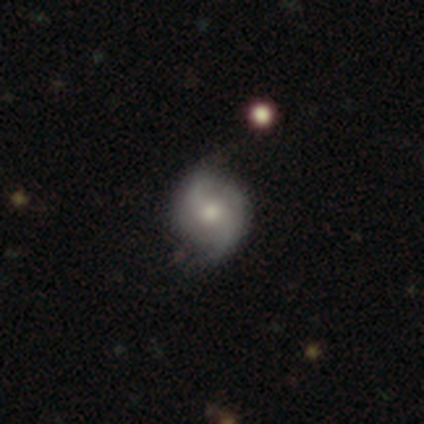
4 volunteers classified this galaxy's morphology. A featured or disk galaxy (50%, tied with star or artifact) with a weak bar (100%), 2 (100%) loose (100%) spiral arms (100%) and a moderate central bulge (50%, tied with small).

Vote fractions:
- Smooth or featured? featured or disk: 50% (tied) / star or artifact: 50% (tied) / smooth: 0%
- Edge-on disk? no: 100% / yes: 0%
- Bar? weak: 100% / strong: 0% / no: 0%
- Spiral arms? yes: 100% / no: 0%
- Spiral winding? loose: 100% / tight: 0% / medium: 0%
- Spiral arm count? 2: 100% / 1: 0% / 3: 0% / 4: 0% / more than 4: 0% / can't tell: 0%
- Bulge size? moderate: 50% (tied) / small: 50% (tied) / dominant: 0% / large: 0% / none: 0%
- Merging? minor disturbance: 100% / none: 0% / major disturbance: 0% / merger: 0%